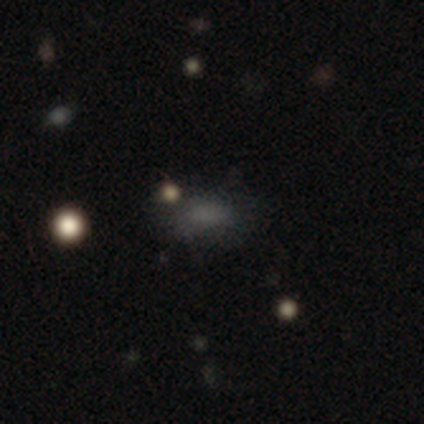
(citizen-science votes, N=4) Q: Smooth or featured?
A: smooth (100%)
Q: How rounded?
A: in between (50%); runner-up: round (25%)
Q: Merging?
A: none (75%); runner-up: minor disturbance (25%)